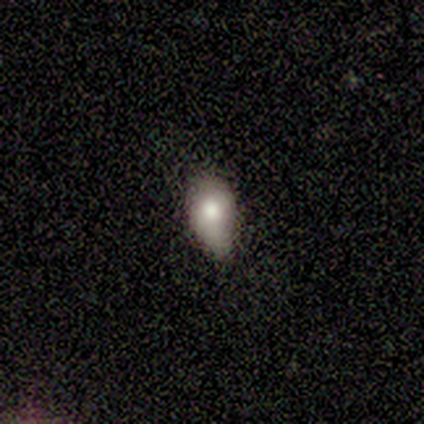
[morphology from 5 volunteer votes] Smooth or featured? 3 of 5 (60%) said smooth. How rounded? 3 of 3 (100%) said in between. Merging? 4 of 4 (100%) said minor disturbance.